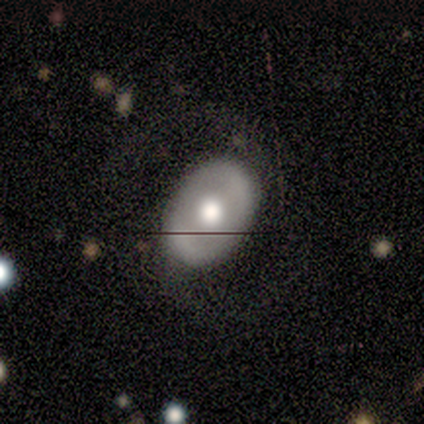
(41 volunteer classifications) This is possibly a featured or disk galaxy (51%). It is clearly not viewed edge-on (90%). Bar: likely no (68%). Spiral arm pattern: possibly no (53%). Central bulge: likely moderate (74%). Merging: likely none (79%).